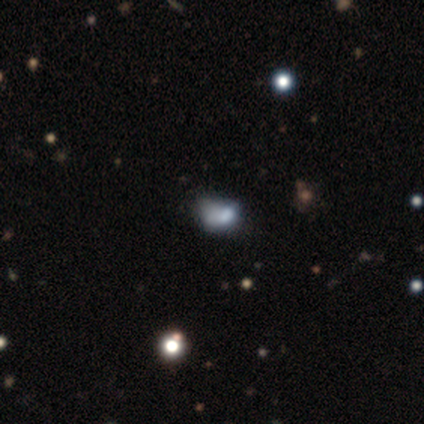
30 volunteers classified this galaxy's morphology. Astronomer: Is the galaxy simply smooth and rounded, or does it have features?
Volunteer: smooth — 50% (runner-up: featured or disk, 33%).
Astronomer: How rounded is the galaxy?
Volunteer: in between — 87%.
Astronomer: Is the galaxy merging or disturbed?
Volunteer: minor disturbance — 40% (runner-up: major disturbance, 24%).